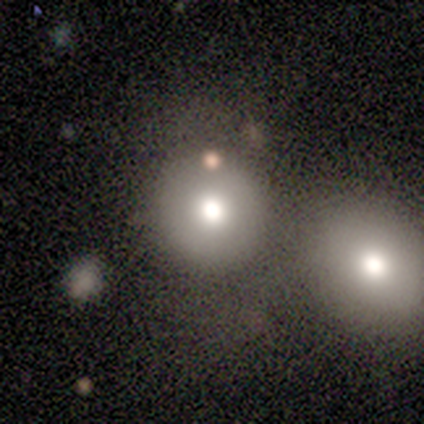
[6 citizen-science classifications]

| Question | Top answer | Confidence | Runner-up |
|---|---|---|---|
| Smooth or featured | smooth | 83% | star or artifact (17%) |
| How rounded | round | 80% | in between (20%) |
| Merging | none | 80% | major disturbance (20%) |